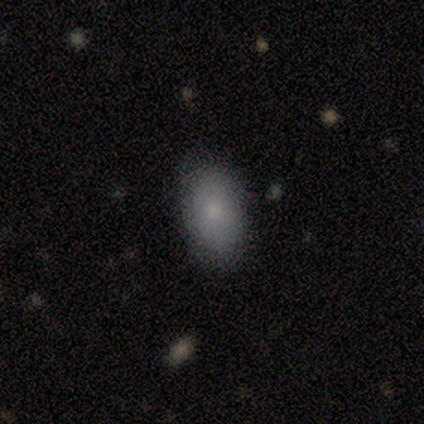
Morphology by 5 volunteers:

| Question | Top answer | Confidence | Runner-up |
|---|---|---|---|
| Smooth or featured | smooth | 100% | — |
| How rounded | in between | 100% | — |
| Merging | none | 100% | — |